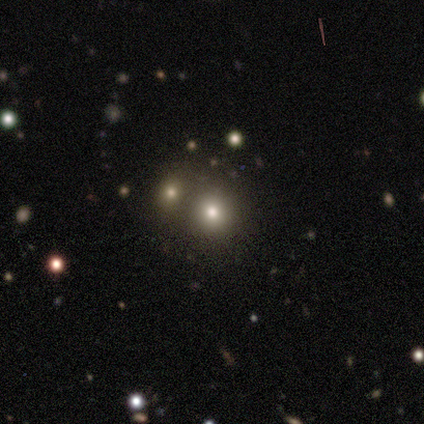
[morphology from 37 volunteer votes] Smooth or featured: smooth — 46% (tied with star or artifact — 46%)
How rounded: round — 94% (in between — 6%)
Merging: none — 70% (merger — 25%)